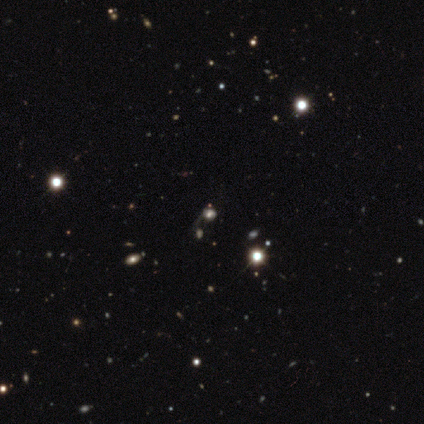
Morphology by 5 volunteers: Smooth or featured?
  - smooth: 80% *
  - star or artifact: 20%
  - featured or disk: 0%
How rounded?
  - round: 100% *
  - in between: 0%
  - cigar-shaped: 0%
Merging?
  - merger: 50% *
  - none: 25%
  - major disturbance: 25%
  - minor disturbance: 0%